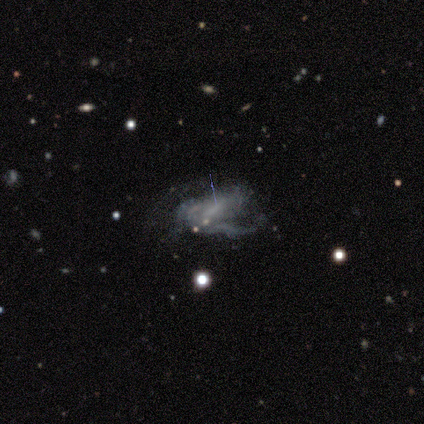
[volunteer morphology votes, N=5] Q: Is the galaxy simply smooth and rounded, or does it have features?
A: featured or disk — 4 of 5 (80%).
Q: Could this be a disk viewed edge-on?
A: no — 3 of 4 (75%).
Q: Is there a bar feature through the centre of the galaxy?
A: weak — 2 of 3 (67%).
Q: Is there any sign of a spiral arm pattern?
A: yes — 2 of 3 (67%).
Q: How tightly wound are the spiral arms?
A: loose — 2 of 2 (100%).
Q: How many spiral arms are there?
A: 1 — 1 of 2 (50%, tied with can't tell).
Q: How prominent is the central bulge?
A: none — 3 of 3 (100%).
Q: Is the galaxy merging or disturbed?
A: major disturbance — 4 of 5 (80%).